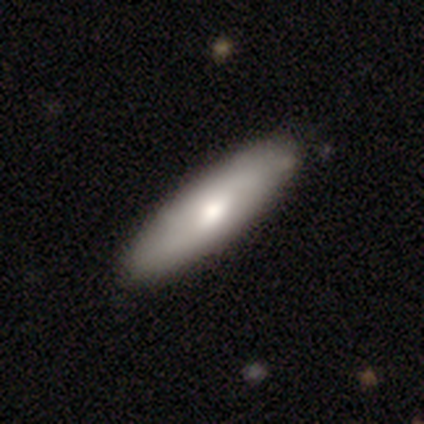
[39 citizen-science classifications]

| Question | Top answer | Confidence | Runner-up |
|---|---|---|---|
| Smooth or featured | smooth | 74% | featured or disk (26%) |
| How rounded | cigar-shaped | 66% | in between (34%) |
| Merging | none | 49% | minor disturbance (5%) |